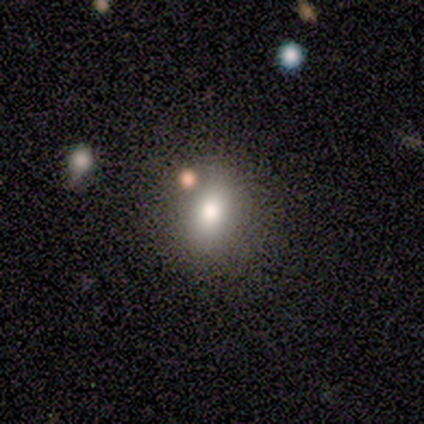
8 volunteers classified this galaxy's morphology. Smooth or featured? smooth (62%)
How rounded? in between (80%)
Merging? none (86%)